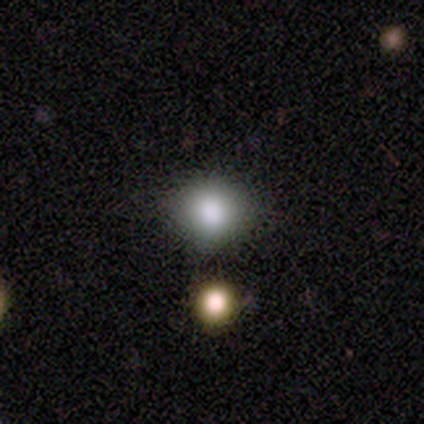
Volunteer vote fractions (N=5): Volunteers were most divided on "merging": none: 50%, minor disturbance: 25%, major disturbance: 25%, merger: 0%. More confident: smooth or featured — smooth (80%); how rounded — round (75%).